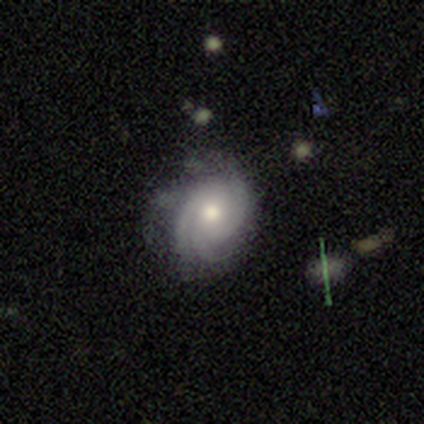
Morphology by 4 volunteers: This appears to be a featured or disk galaxy (100%) with no bar (100%), 3 (75%) tight (50%) spiral arms (100%) and a moderate central bulge (100%). Merging: minor disturbance (100%).